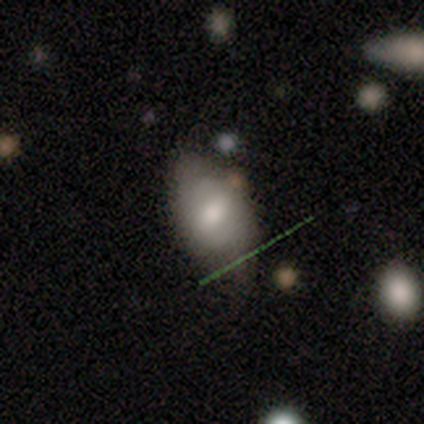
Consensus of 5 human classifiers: Smooth or featured?
  - smooth: 60% *
  - featured or disk: 40%
  - star or artifact: 0%
How rounded?
  - in between: 67% *
  - round: 33%
  - cigar-shaped: 0%
Merging?
  - none: 60% *
  - minor disturbance: 40%
  - major disturbance: 0%
  - merger: 0%